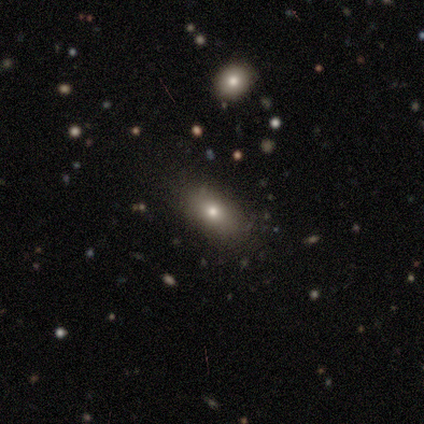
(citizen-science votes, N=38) A smooth galaxy with no disk features (58%) that is in between round and cigar-shaped (77%). Merging: none (69%).